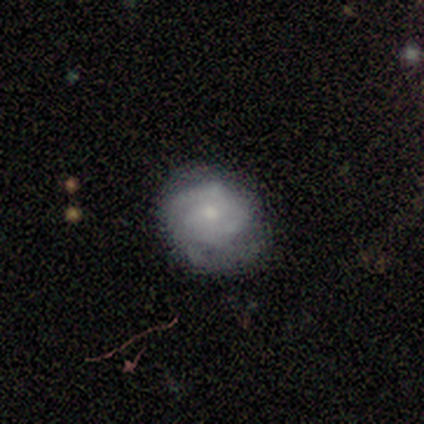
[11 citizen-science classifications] Overall: featured or disk (64%; smooth 27%). Edge-on disk: no (100%). Bar: no (57%; strong 29%). Spiral arms: yes (100%). Spiral arm count: 2 (43%; can't tell 29%). Spiral winding: tight (71%). Bulge size: moderate (71%). Merging: none (70%).